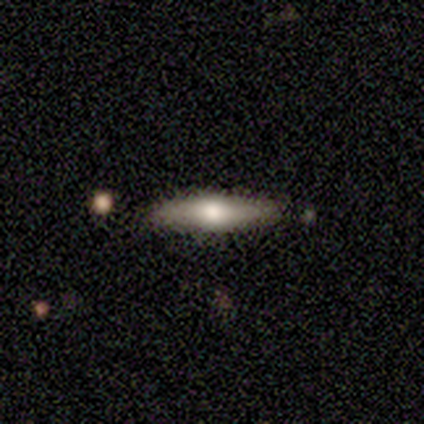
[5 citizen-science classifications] smooth_or_featured: featured or disk (p=0.80) [alt: smooth p=0.20]
disk_edge_on: yes (p=0.75) [alt: no p=0.25]
edge_on_bulge: none (p=0.67) [alt: rounded p=0.33]
merging: none (p=0.80) [alt: minor disturbance p=0.20]